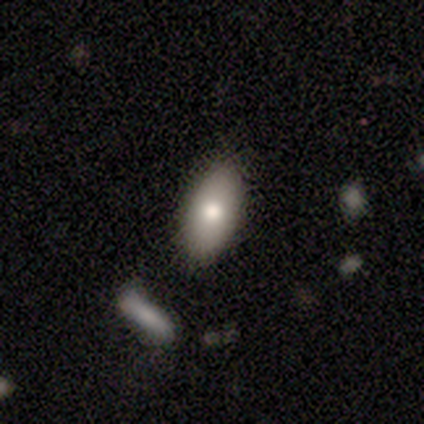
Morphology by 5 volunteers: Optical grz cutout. It shows a smooth galaxy with no disk features (60%) that is in between round and cigar-shaped (100%). Merging: none (80%).